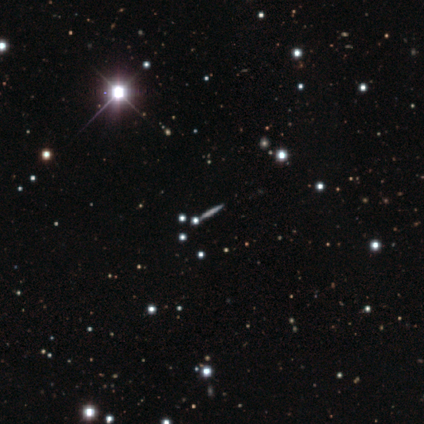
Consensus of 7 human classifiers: Smooth or featured? 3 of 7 (43%) said featured or disk. Edge-on disk? 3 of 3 (100%) said yes. Edge-on bulge? 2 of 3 (67%) said none. Merging? 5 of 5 (100%) said none.